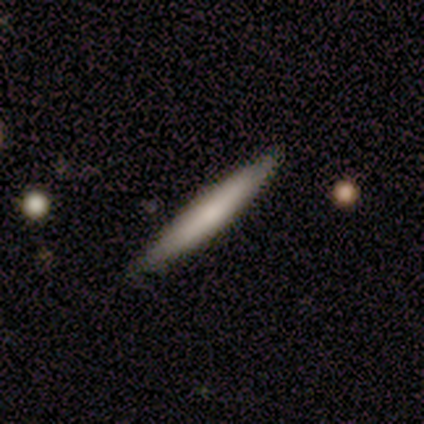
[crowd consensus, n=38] This appears to be a smooth galaxy with no disk features (66%) that is cigar-shaped (100%). Merging: none (89%).